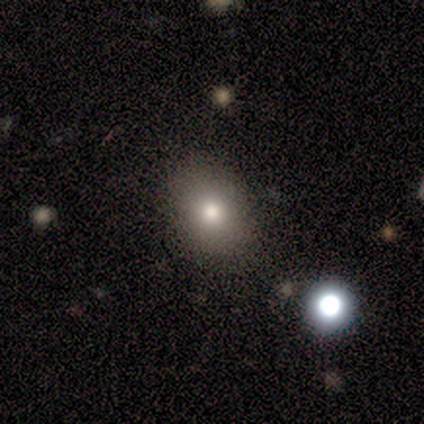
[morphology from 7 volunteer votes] smooth_or_featured: smooth (p=0.86) [alt: featured or disk p=0.14]
how_rounded: in between (p=0.67) [alt: round p=0.33]
merging: none (p=1.00)